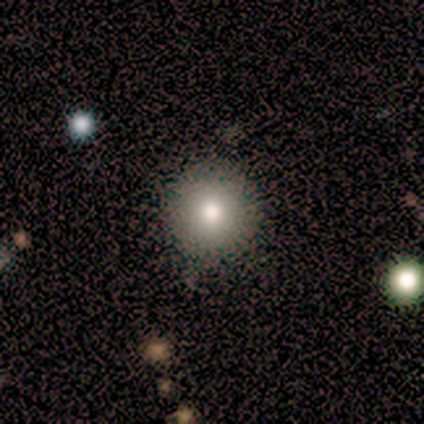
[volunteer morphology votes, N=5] smooth-or-featured: smooth: 100% | featured or disk: 0% | star or artifact: 0%
  how-rounded: round: 80% | in between: 20% | cigar-shaped: 0%
  merging: none: 100% | minor disturbance: 0% | major disturbance: 0% | merger: 0%